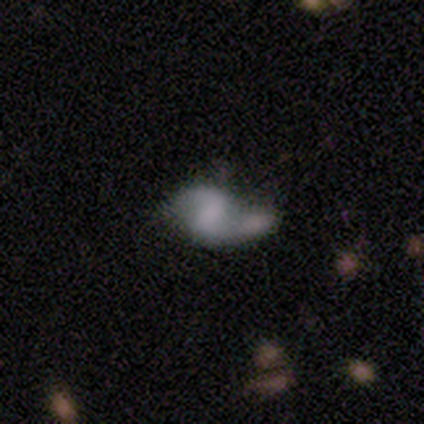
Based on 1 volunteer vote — A smooth galaxy with no disk features (100%) that is round (100%). Merging: merger (100%).